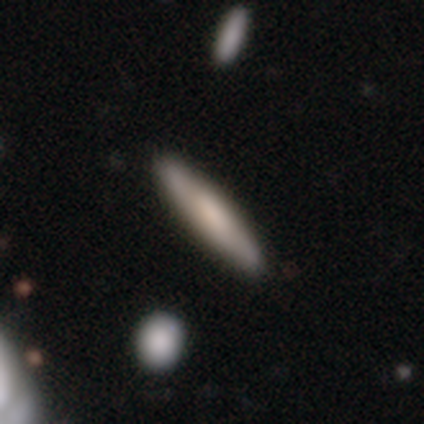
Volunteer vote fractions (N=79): Overall: smooth (49%; featured or disk 41%). How rounded: cigar-shaped (92%). Merging: none (49%).